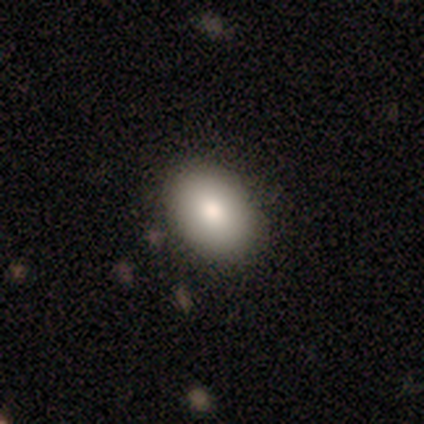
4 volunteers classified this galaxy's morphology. Smooth or featured: smooth — 100%
How rounded: in between — 75% (round — 25%)
Merging: none — 100%